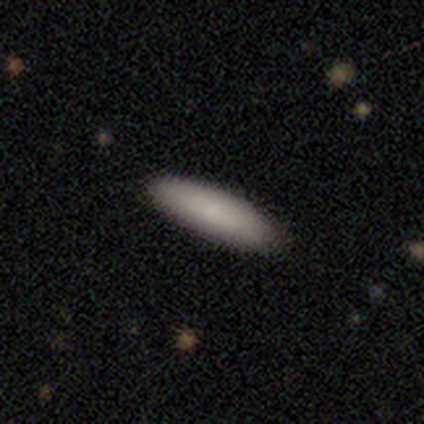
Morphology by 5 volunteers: Smooth or featured? smooth (80%)
How rounded? in between (75%)
Merging? none (100%)